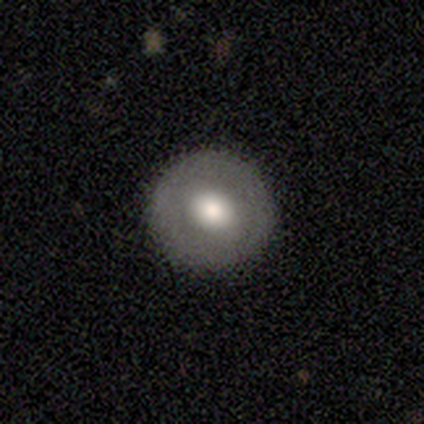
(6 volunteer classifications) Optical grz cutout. It shows a smooth galaxy with no disk features (50%, tied with featured or disk) that is round (67%). Merging: none (100%).